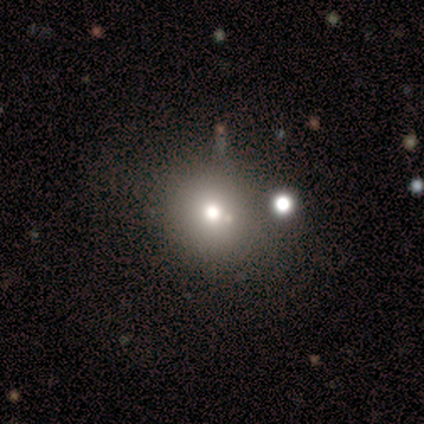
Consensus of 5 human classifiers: A smooth galaxy with no disk features (60%) that is round (100%).

Vote fractions:
- Smooth or featured? smooth: 60% / featured or disk: 20% / star or artifact: 20%
- How rounded? round: 100% / in between: 0% / cigar-shaped: 0%
- Merging? none: 75% / merger: 25% / minor disturbance: 0% / major disturbance: 0%